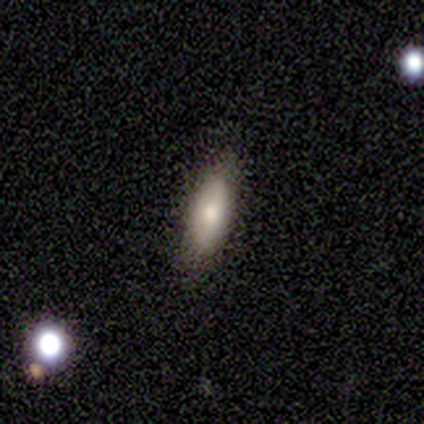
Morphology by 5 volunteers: Smooth or featured? 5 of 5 (100%) said smooth. How rounded? 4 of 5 (80%) said in between. Merging? 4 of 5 (80%) said none.